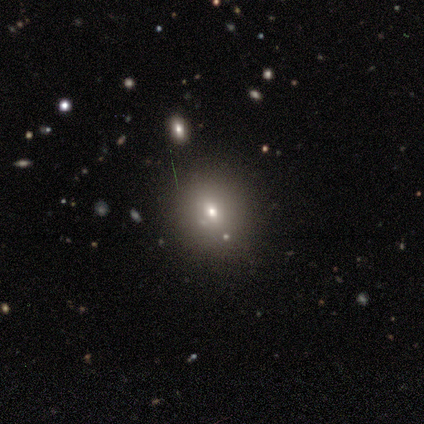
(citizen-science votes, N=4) Smooth or featured?
  - smooth: 50% *
  - featured or disk: 25%
  - star or artifact: 25%
How rounded?
  - round: 50% * (tied)
  - in between: 50% * (tied)
  - cigar-shaped: 0%
Merging?
  - none: 67% *
  - minor disturbance: 33%
  - major disturbance: 0%
  - merger: 0%